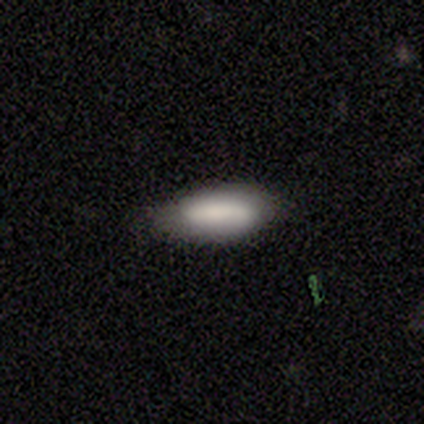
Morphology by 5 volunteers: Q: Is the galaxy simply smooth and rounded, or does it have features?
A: smooth — 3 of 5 (60%).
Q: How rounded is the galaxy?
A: in between — 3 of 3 (100%).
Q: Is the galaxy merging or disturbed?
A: none — 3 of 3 (100%).